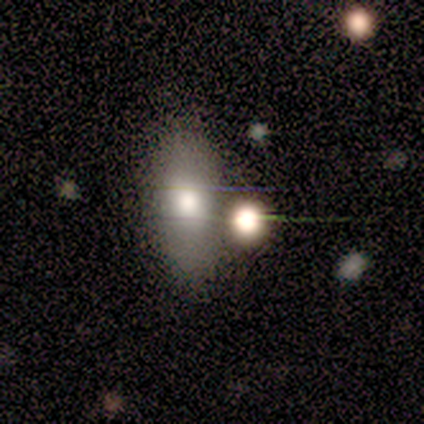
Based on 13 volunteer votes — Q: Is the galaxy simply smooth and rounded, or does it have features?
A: smooth — 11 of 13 (85%).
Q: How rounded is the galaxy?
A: in between — 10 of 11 (91%).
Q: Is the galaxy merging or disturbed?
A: none — 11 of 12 (92%).